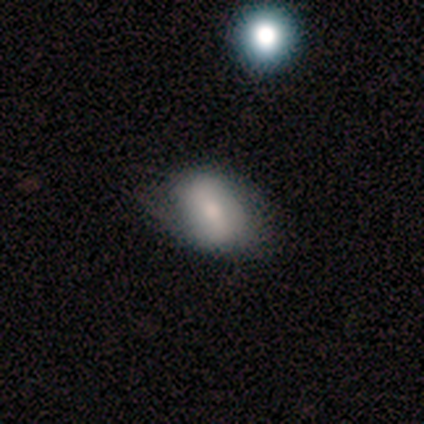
Smooth or featured: smooth — 75% (featured or disk — 25%)
How rounded: in between — 67% (round — 33%)
Merging: none — 100%